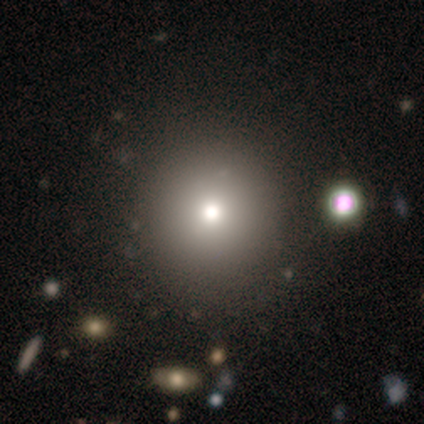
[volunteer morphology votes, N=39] Q: Smooth or featured?
A: smooth (87%); runner-up: star or artifact (10%)
Q: How rounded?
A: round (100%)
Q: Merging?
A: none (60%); runner-up: minor disturbance (3%)